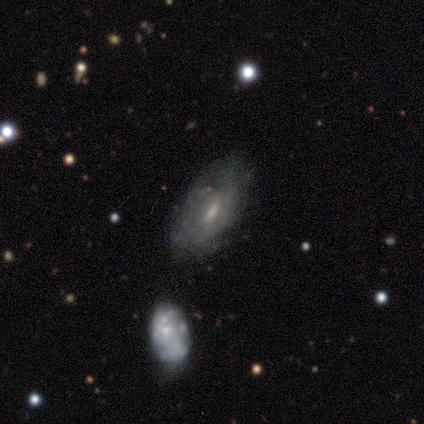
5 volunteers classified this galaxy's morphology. Smooth or featured?
  - featured or disk: 60% *
  - smooth: 40%
  - star or artifact: 0%
Edge-on disk?
  - no: 100% *
  - yes: 0%
Bar?
  - weak: 67% *
  - no: 33%
  - strong: 0%
Spiral arms?
  - no: 67% *
  - yes: 33%
Bulge size?
  - small: 67% *
  - moderate: 33%
  - dominant: 0%
  - large: 0%
  - none: 0%
Merging?
  - none: 60% *
  - minor disturbance: 40%
  - major disturbance: 0%
  - merger: 0%